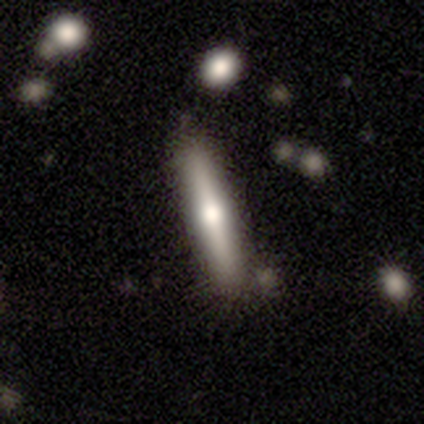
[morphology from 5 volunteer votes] type=featured or disk (60%); edge-on=yes (100%); edge-on bulge=rounded (67%); merging=none (75%).